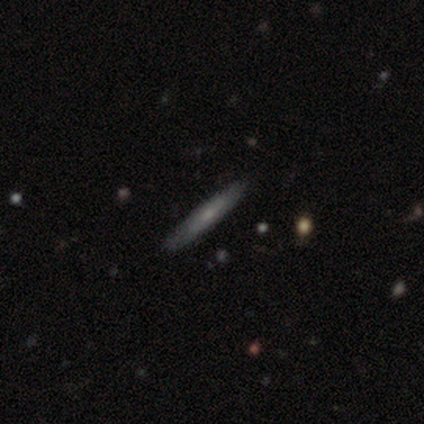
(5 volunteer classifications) A smooth galaxy with no disk features (60%) that is cigar-shaped (100%). Merging: none (80%).